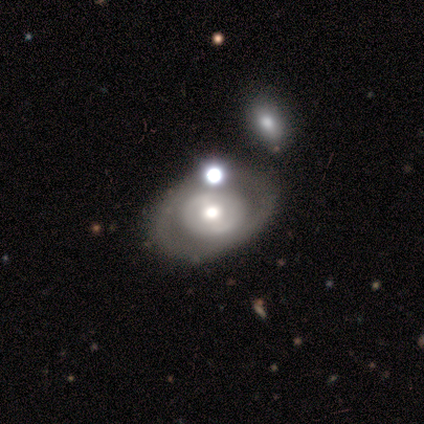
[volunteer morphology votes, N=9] type=featured or disk (78%); edge-on=no (100%); bar=no (71%); spiral arms=no (71%); bulge=moderate (71%); merging=none (78%).